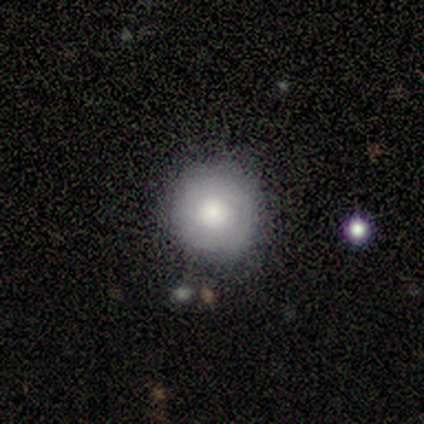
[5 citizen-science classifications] Q: Smooth or featured?
A: smooth (60%); runner-up: featured or disk (40%)
Q: How rounded?
A: round (100%)
Q: Merging?
A: none (100%)